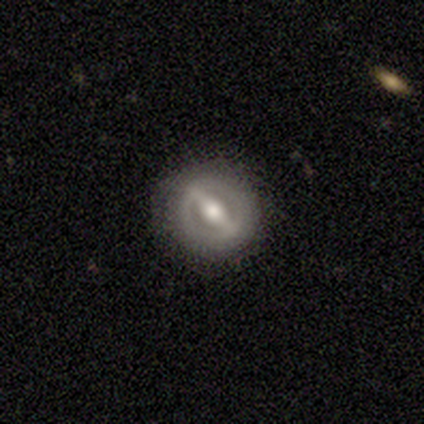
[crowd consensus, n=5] A featured or disk galaxy (100%) with a strong bar (40%, tied with weak), no spiral arms (100%) and a moderate central bulge (80%). Merging: none (100%).